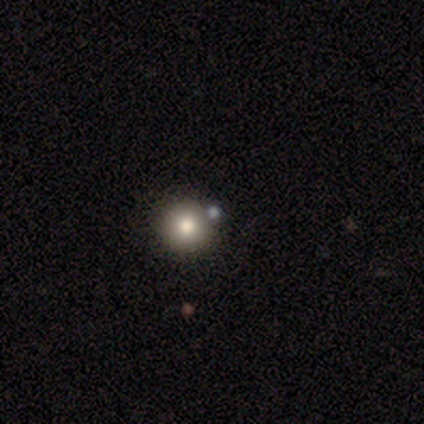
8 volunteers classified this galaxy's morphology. Smooth or featured? 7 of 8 (88%) said smooth. How rounded? 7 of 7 (100%) said round. Merging? 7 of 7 (100%) said none.